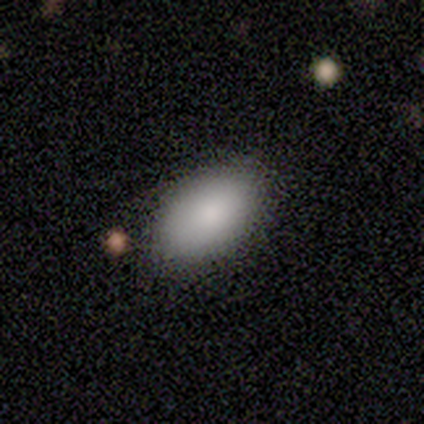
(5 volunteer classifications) A smooth galaxy with no disk features (80%) that is in between round and cigar-shaped (100%). Merging: none (75%).